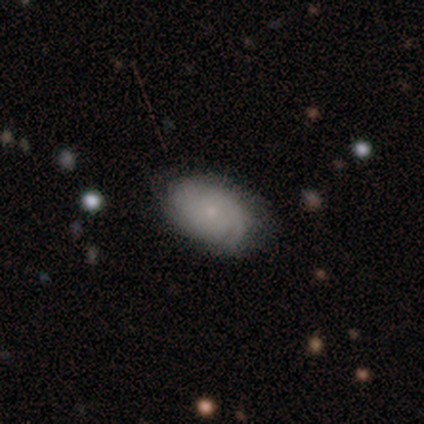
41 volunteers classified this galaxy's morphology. Volunteers were most divided on "spiral arm count": can't tell: 42%, 2: 32%, 3: 11%, more than 4: 11%, 4: 5%, 1: 0%. More confident: edge-on disk — no (95%); spiral arms — yes (90%); bulge size — small (90%); merging — none (74%); bar — no (71%); spiral winding — tight (63%); smooth or featured — featured or disk (54%).